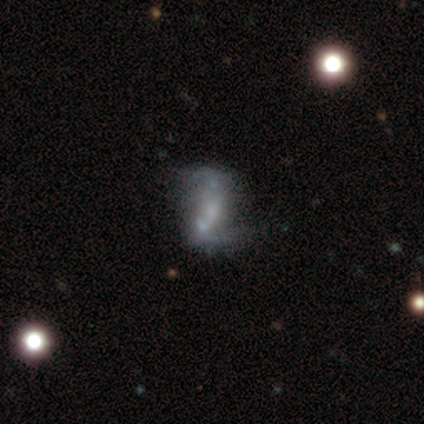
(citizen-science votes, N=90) Q: Smooth or featured?
A: featured or disk (72%); runner-up: smooth (16%)
Q: Edge-on disk?
A: no (98%); runner-up: yes (2%)
Q: Bar?
A: no (58%); runner-up: weak (30%)
Q: Spiral arms?
A: yes (52%); runner-up: no (48%)
Q: Spiral winding?
A: loose (70%); runner-up: medium (21%)
Q: Spiral arm count?
A: 2 (82%); runner-up: can't tell (15%)
Q: Bulge size?
A: none (59%); runner-up: small (27%)
Q: Merging?
A: none (49%); runner-up: major disturbance (23%)